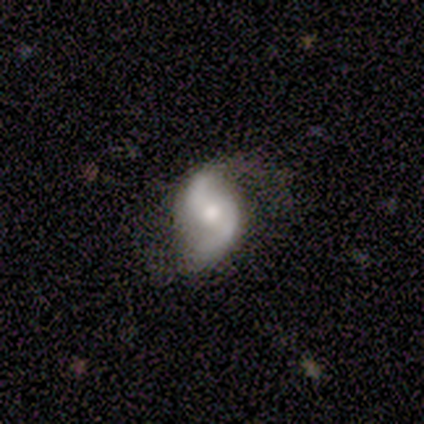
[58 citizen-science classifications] smooth-or-featured: featured or disk: 88% | smooth: 7% | star or artifact: 5%
  disk-edge-on: no: 98% | yes: 2%
    bar: no: 62% | weak: 32% | strong: 6%
    has-spiral-arms: yes: 94% | no: 6%
      spiral-winding: loose: 60% | medium: 30% | tight: 11%
      spiral-arm-count: 2: 100% | 1: 0% | 3: 0% | 4: 0% | more than 4: 0% | can't tell: 0%
    bulge-size: moderate: 64% | small: 26% | large: 8% | dominant: 2% | none: 0%
  merging: none: 62% | minor disturbance: 22% | major disturbance: 15% | merger: 2%